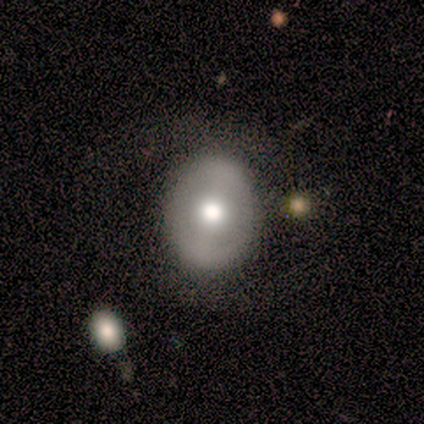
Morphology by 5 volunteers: This appears to be a featured or disk galaxy (80%) with no bar (50%), no spiral arms (100%) and a moderate central bulge (75%). Merging: none (80%).